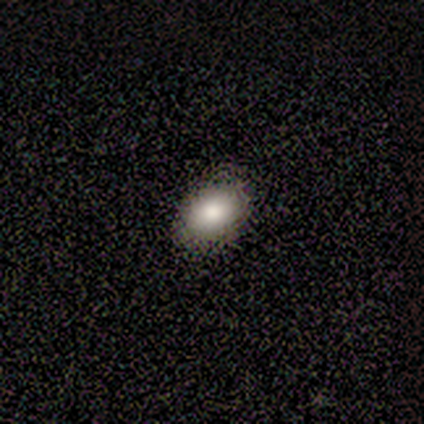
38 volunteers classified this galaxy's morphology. Q: Smooth or featured?
A: smooth (76%); runner-up: star or artifact (13%)
Q: How rounded?
A: in between (76%); runner-up: round (24%)
Q: Merging?
A: none (79%); runner-up: minor disturbance (15%)